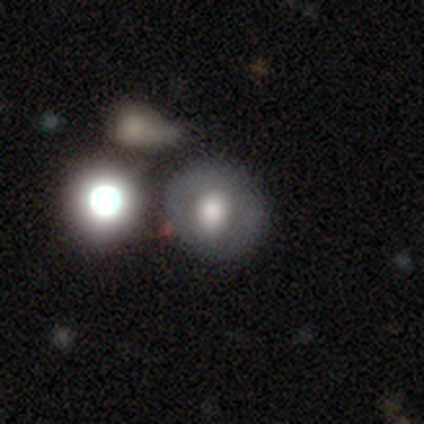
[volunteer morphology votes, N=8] Volunteers were most divided on "smooth or featured": smooth: 50%, featured or disk: 38%, star or artifact: 12%. More confident: how rounded — round (75%); merging — none (71%).